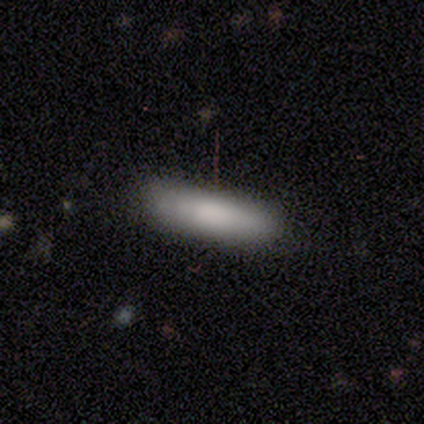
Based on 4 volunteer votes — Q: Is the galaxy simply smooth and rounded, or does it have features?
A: smooth — 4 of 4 (100%).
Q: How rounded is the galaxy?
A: cigar-shaped — 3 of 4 (75%).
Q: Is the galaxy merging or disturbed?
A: none — 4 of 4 (100%).